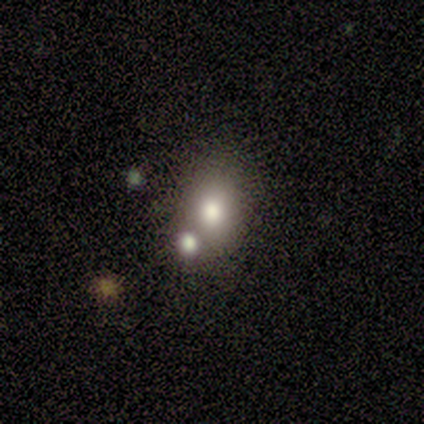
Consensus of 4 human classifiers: This is possibly a smooth galaxy (50%). How rounded: clearly in between (100%). Merging: likely merger (67%).